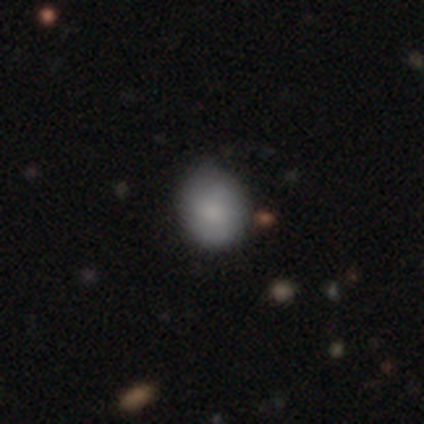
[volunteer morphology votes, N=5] Q: Smooth or featured?
A: smooth (100%)
Q: How rounded?
A: round (60%); runner-up: in between (40%)
Q: Merging?
A: minor disturbance (60%); runner-up: none (40%)